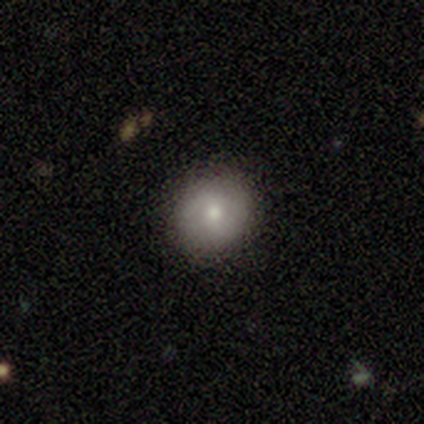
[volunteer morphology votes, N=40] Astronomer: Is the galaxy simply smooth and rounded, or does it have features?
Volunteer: smooth — 75%.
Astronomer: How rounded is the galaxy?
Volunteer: round — 80%.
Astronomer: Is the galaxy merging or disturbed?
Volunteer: none — 94%.